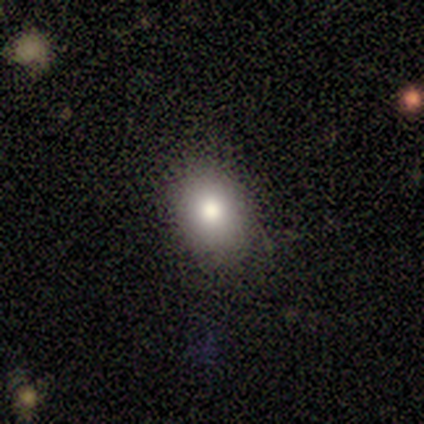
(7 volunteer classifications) This is clearly a smooth galaxy (86%). How rounded: likely in between (67%). Merging: clearly none (83%).